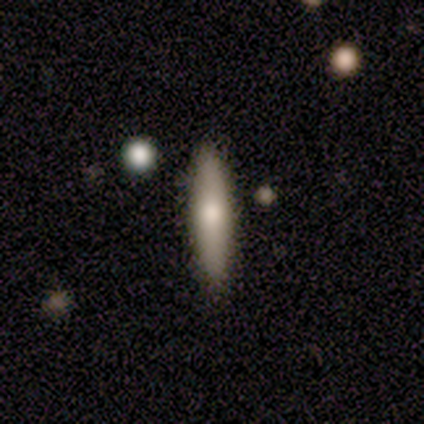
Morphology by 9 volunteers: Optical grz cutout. It shows a smooth galaxy with no disk features (56%) that is cigar-shaped (100%). Merging: none (88%).